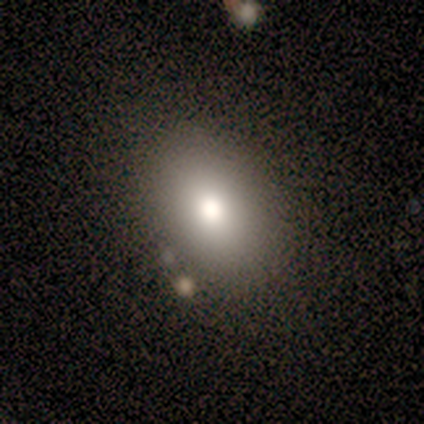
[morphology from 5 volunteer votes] Q: Smooth or featured?
A: smooth (100%)
Q: How rounded?
A: in between (80%); runner-up: round (20%)
Q: Merging?
A: none (80%); runner-up: minor disturbance (20%)